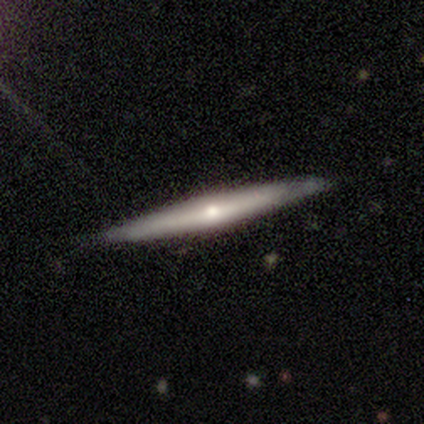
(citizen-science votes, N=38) Smooth or featured? featured or disk (68%)
Edge-on disk? yes (96%)
Edge-on bulge? rounded (56%)
Merging? none (97%)